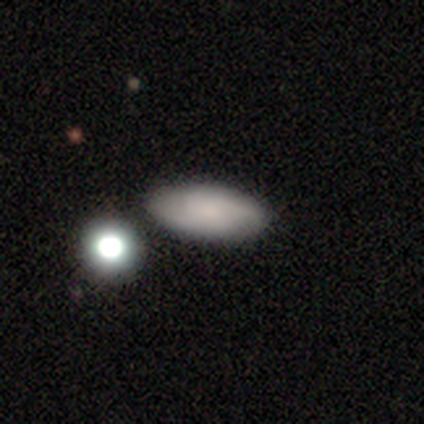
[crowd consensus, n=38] smooth 71%, featured or disk 21%, star or artifact 8%. Down the decision tree: how rounded — in between (85%); merging — none (83%).